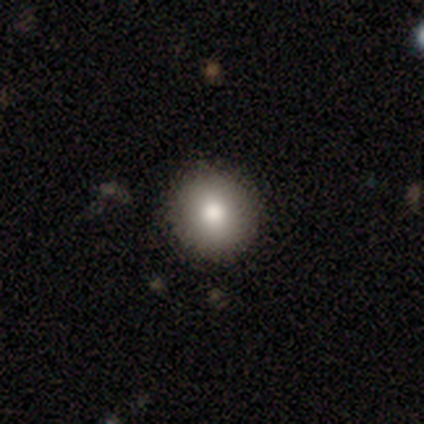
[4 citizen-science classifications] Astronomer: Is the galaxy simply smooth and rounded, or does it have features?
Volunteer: smooth — 50%, tied with featured or disk at 50%.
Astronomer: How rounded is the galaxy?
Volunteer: round — 100%.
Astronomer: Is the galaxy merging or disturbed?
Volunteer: none — 100%.